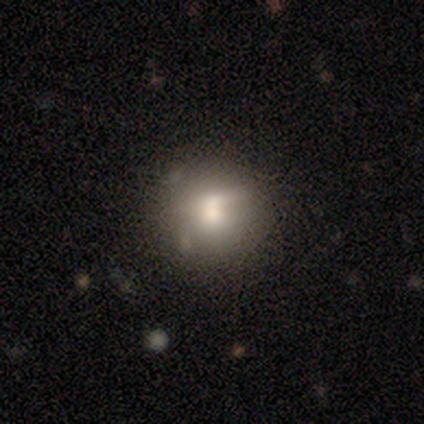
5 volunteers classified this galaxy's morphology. Smooth or featured?
  - smooth: 80% *
  - star or artifact: 20%
  - featured or disk: 0%
How rounded?
  - round: 100% *
  - in between: 0%
  - cigar-shaped: 0%
Merging?
  - none: 50% *
  - minor disturbance: 25%
  - merger: 25%
  - major disturbance: 0%